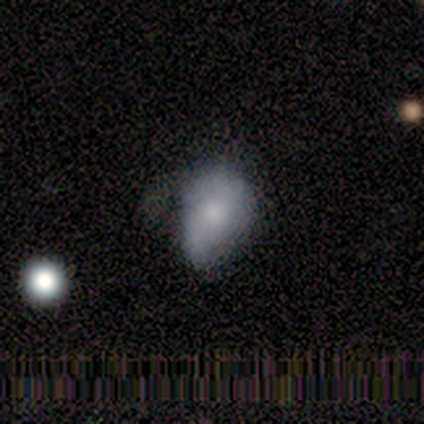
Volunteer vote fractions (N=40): A smooth galaxy with no disk features (57%) that is in between round and cigar-shaped (91%). Merging: minor disturbance (46%).